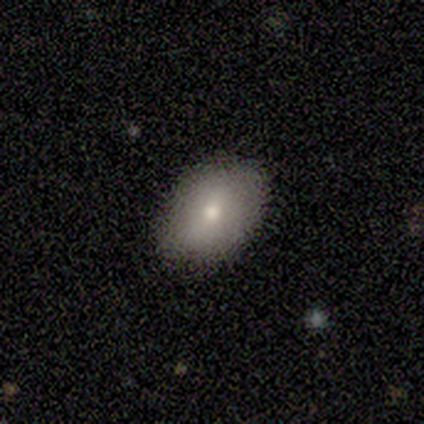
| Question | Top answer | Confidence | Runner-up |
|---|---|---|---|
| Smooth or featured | smooth | 100% | — |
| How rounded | in between | 100% | — |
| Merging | none | 100% | — |